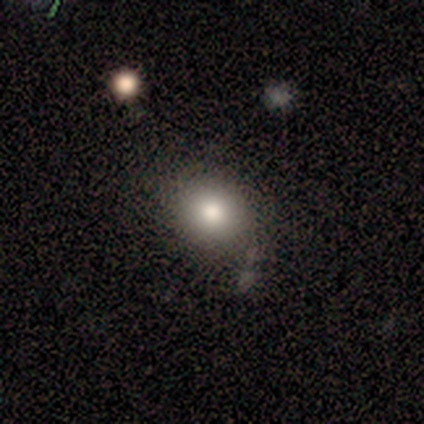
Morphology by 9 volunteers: A smooth galaxy with no disk features (67%) that is round (50%, tied with in between). Merging: none (62%).